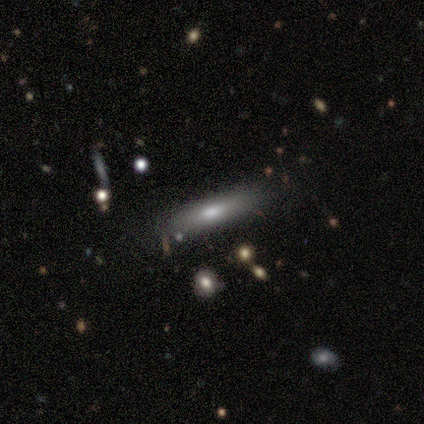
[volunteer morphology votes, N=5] Smooth or featured? 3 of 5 (60%) said featured or disk. Edge-on disk? 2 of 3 (67%) said yes. Edge-on bulge? 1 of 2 (50%, tied with rounded) said none. Merging? 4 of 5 (80%) said none.